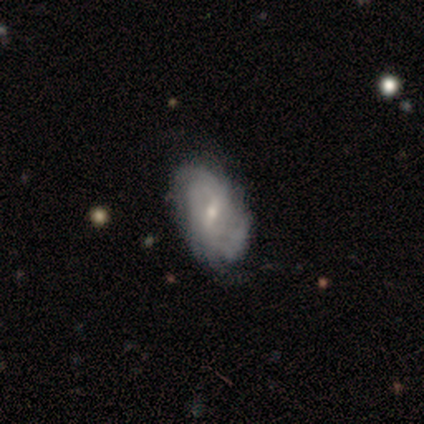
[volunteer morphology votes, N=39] smooth-or-featured: featured or disk: 90% | smooth: 5% | star or artifact: 5%
  disk-edge-on: no: 94% | yes: 6%
    bar: weak: 70% | no: 18% | strong: 12%
    has-spiral-arms: yes: 88% | no: 12%
      spiral-winding: tight: 52% | medium: 24% | loose: 24%
      spiral-arm-count: can't tell: 45% | 2: 21% | 3: 14% | more than 4: 10% | 4: 7% | 1: 3%
    bulge-size: small: 64% | moderate: 33% | none: 3% | dominant: 0% | large: 0%
  merging: none: 76% | minor disturbance: 14% | major disturbance: 8% | merger: 3%